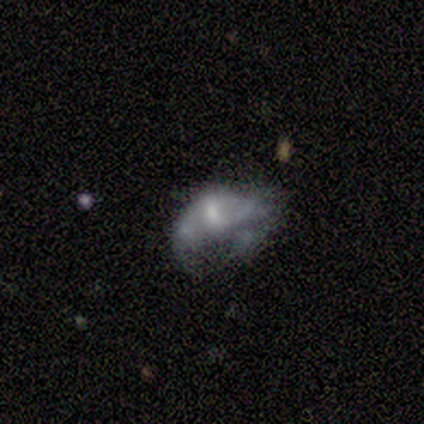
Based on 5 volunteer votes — Q: Smooth or featured?
A: smooth (40%); tied with: featured or disk (40%)
Q: How rounded?
A: in between (50%); tied with: cigar-shaped (50%)
Q: Merging?
A: merger (50%); runner-up: none (25%)